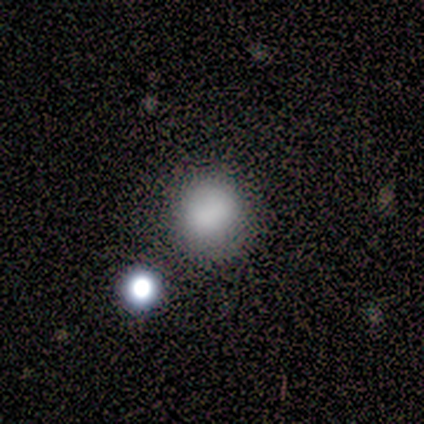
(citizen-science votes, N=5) Morphology: type=smooth (100%); roundness=round (60%); merging=none (60%).